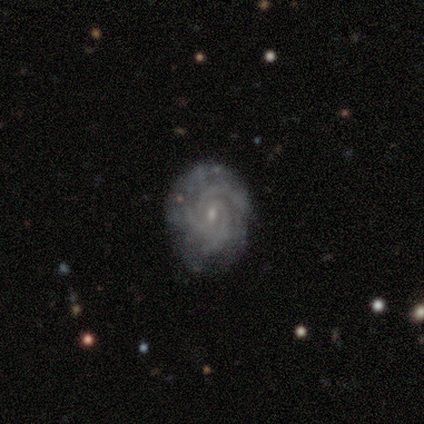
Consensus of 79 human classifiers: Q: Smooth or featured?
A: featured or disk (97%); runner-up: smooth (3%)
Q: Edge-on disk?
A: no (97%); runner-up: yes (3%)
Q: Bar?
A: no (51%); runner-up: weak (45%)
Q: Spiral arms?
A: yes (97%); runner-up: no (3%)
Q: Spiral winding?
A: tight (60%); runner-up: medium (36%)
Q: Spiral arm count?
A: 3 (56%); runner-up: can't tell (18%)
Q: Bulge size?
A: small (89%); runner-up: moderate (7%)
Q: Merging?
A: none (51%); runner-up: minor disturbance (4%)